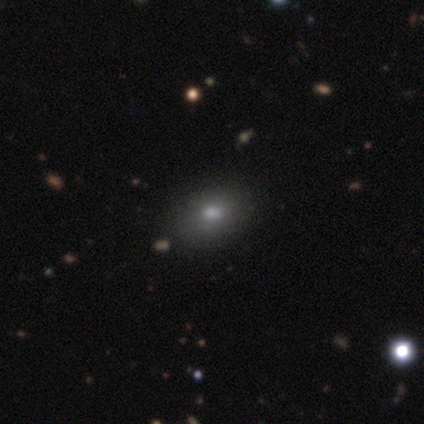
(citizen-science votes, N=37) Smooth or featured: smooth — 81% (star or artifact — 16%)
How rounded: in between — 73% (round — 27%)
Merging: none — 87% (minor disturbance — 6%)